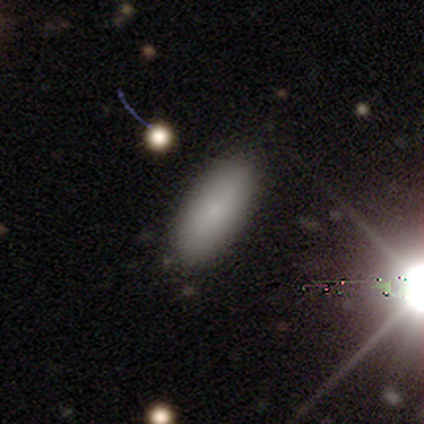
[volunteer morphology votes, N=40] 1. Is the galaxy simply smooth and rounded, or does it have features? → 80% smooth, 12% featured or disk, 8% star or artifact.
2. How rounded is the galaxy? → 88% in between, 12% cigar-shaped, 0% round.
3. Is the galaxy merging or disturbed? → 78% none, 16% minor disturbance, 3% major disturbance, 3% merger.